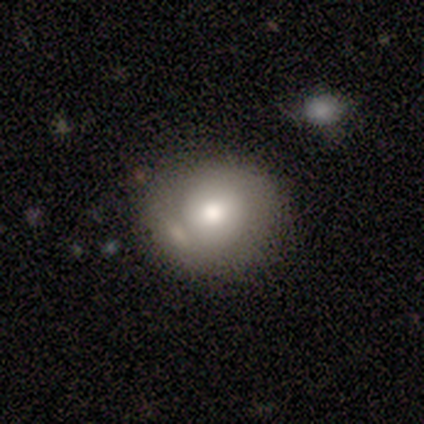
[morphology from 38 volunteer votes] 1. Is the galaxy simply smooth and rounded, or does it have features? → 74% smooth, 16% featured or disk, 11% star or artifact.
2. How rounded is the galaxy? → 82% round, 18% in between, 0% cigar-shaped.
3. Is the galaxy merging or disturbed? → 56% none, 26% minor disturbance, 18% merger, 0% major disturbance.